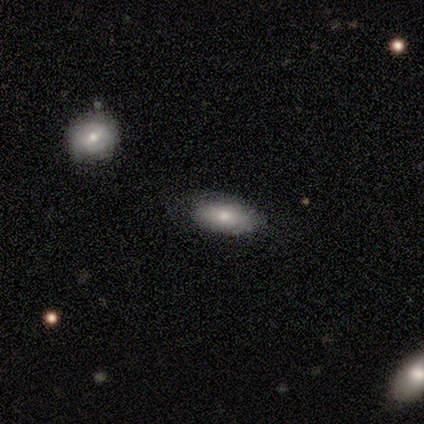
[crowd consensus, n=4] smooth_or_featured: smooth (p=0.75) [alt: featured or disk p=0.25]
how_rounded: in between (p=1.00)
merging: none (p=0.75) [alt: minor disturbance p=0.25]